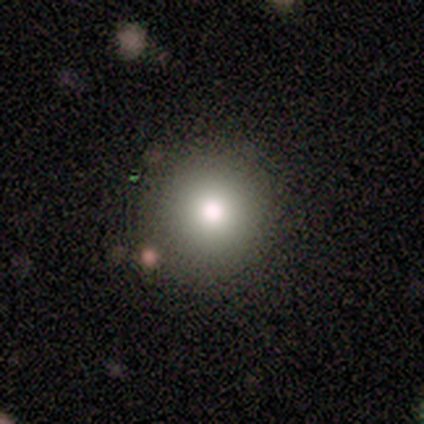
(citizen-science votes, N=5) Overall: smooth (100%). How rounded: round (100%). Merging: none (80%).